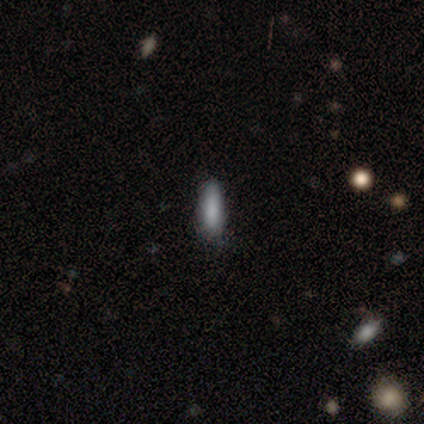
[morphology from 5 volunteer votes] Q: Smooth or featured?
A: smooth (100%)
Q: How rounded?
A: in between (60%); runner-up: cigar-shaped (40%)
Q: Merging?
A: none (100%)